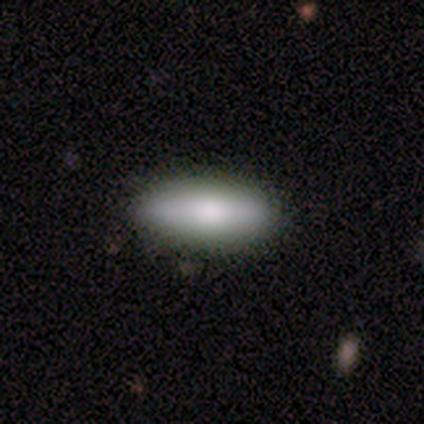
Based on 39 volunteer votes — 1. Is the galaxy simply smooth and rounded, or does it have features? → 79% smooth, 21% featured or disk, 0% star or artifact.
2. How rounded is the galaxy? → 74% in between, 26% cigar-shaped, 0% round.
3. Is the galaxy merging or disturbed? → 85% none, 10% minor disturbance, 5% major disturbance, 0% merger.